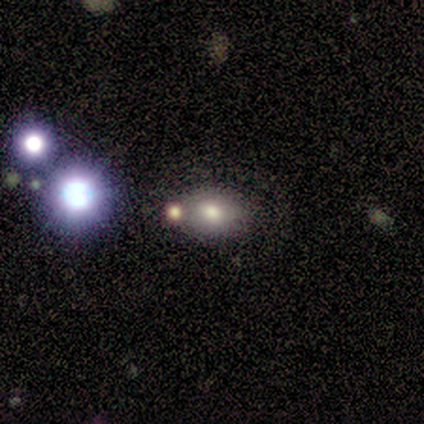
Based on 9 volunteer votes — Smooth or featured? 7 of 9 (78%) said smooth. How rounded? 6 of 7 (86%) said in between. Merging? 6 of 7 (86%) said none.